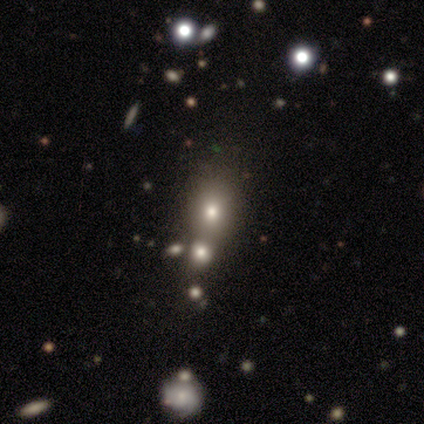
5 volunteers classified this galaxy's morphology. Smooth or featured? 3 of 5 (60%) said smooth. How rounded? 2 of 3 (67%) said in between. Merging? 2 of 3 (67%) said merger.